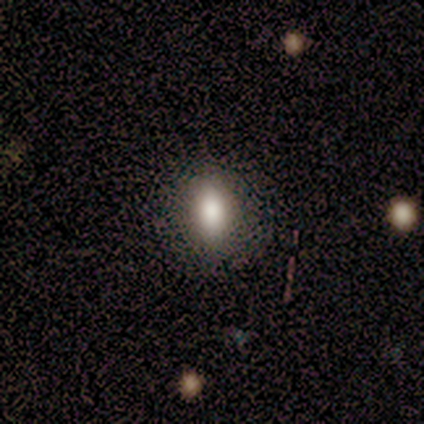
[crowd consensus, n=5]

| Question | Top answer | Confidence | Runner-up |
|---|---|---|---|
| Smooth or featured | smooth | 80% | featured or disk (20%) |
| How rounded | in between | 50% | round (25%) |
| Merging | none | 100% | — |